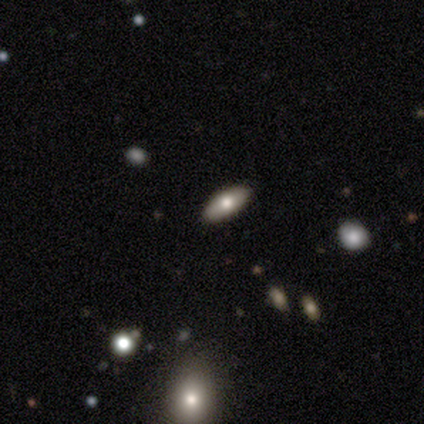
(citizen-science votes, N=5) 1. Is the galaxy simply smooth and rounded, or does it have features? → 80% smooth, 20% featured or disk, 0% star or artifact.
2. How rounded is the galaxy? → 75% in between, 25% cigar-shaped, 0% round.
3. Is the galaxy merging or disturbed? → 40% none (tied), 40% minor disturbance (tied), 20% merger, 0% major disturbance.